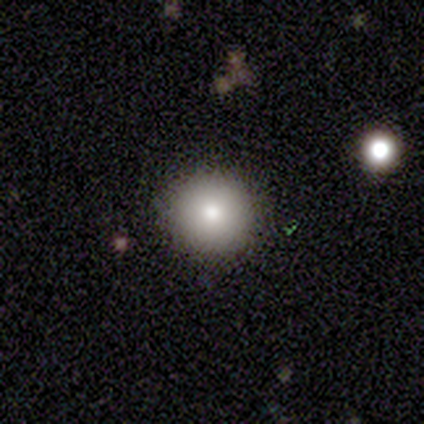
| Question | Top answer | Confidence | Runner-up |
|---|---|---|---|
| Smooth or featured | smooth | 100% | — |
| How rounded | round | 100% | — |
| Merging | none | 80% | minor disturbance (20%) |